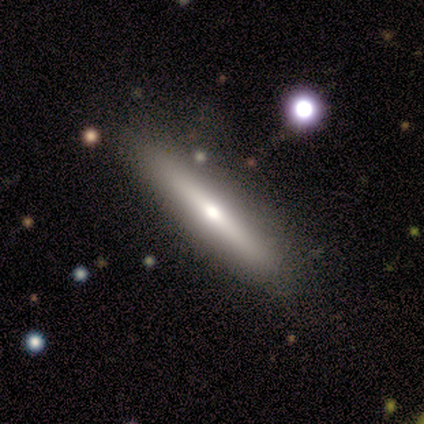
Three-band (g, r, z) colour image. It shows a featured or disk galaxy (100%) viewed edge-on (100%) with a rounded central bulge (100%). Merging: none (100%).